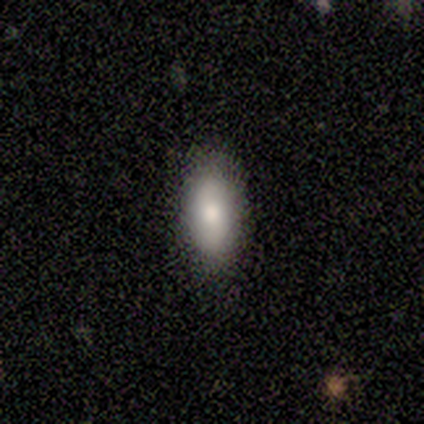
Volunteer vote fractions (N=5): Morphology: type=smooth (40%, tied with featured or disk); roundness=in between (100%); merging=none (75%).